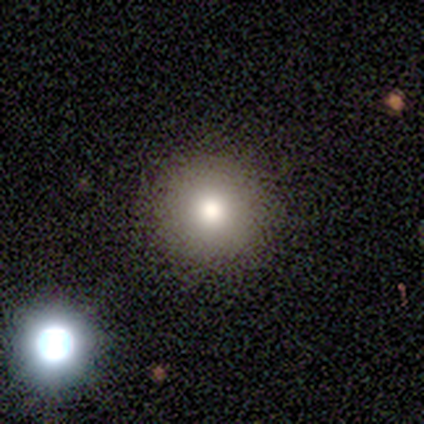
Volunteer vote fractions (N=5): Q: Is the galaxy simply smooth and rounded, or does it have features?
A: smooth — 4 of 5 (80%).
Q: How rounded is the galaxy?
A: round — 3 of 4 (75%).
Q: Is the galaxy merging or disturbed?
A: none — 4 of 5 (80%).